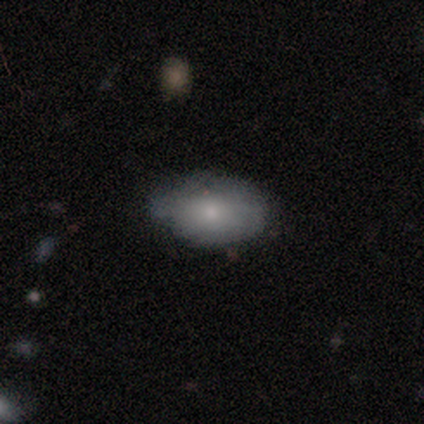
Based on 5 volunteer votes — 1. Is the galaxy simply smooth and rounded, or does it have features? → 80% smooth, 20% featured or disk, 0% star or artifact.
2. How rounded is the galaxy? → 100% in between, 0% round, 0% cigar-shaped.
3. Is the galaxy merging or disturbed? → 80% minor disturbance, 20% none, 0% major disturbance, 0% merger.